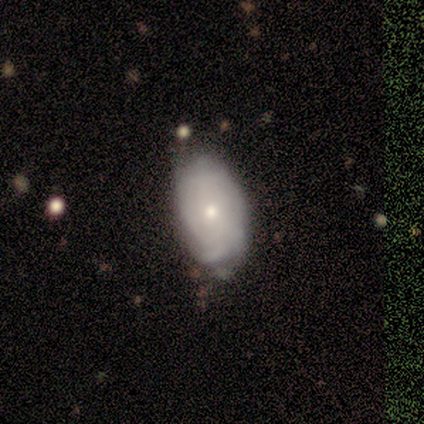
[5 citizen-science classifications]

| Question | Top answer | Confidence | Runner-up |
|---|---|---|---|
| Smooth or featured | featured or disk | 60% | smooth (40%) |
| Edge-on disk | no | 67% | yes (33%) |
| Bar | no | 100% | — |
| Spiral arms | yes | 50% | tied: no (50%) |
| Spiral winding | tight | 100% | — |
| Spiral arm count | can't tell | 100% | — |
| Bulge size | moderate | 50% | tied: small (50%) |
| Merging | none | 100% | — |